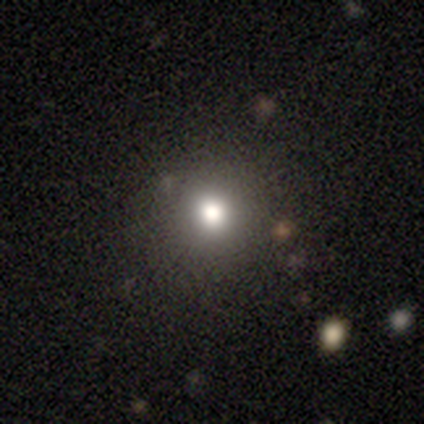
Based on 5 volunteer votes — smooth-or-featured: smooth: 100% | featured or disk: 0% | star or artifact: 0%
  how-rounded: round: 100% | in between: 0% | cigar-shaped: 0%
  merging: none: 80% | minor disturbance: 20% | major disturbance: 0% | merger: 0%